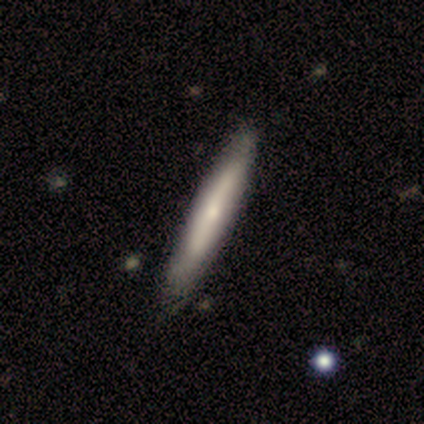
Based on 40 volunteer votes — A smooth galaxy with no disk features (62%) that is cigar-shaped (92%). Merging: none (67%).